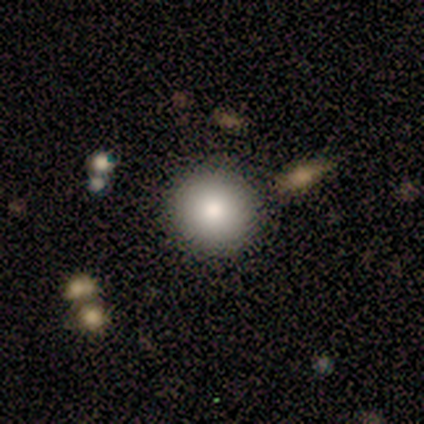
Morphology: type=smooth (100%); roundness=round (100%); merging=none (80%).